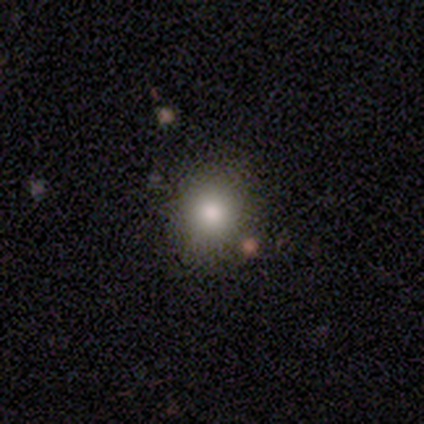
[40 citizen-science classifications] This appears to be a smooth galaxy with no disk features (70%) that is round (86%). Merging: none (91%).